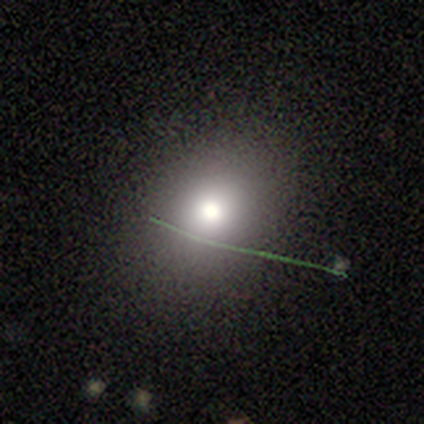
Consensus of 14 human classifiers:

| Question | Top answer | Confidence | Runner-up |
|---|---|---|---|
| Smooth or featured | smooth | 86% | featured or disk (7%) |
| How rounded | round | 58% | in between (42%) |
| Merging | none | 85% | minor disturbance (15%) |